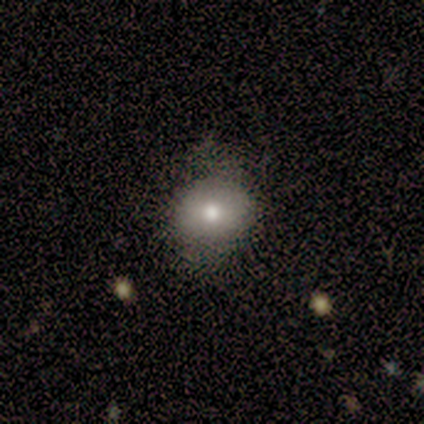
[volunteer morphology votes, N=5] Overall: smooth (60%; featured or disk 20%). How rounded: round (67%; in between 33%). Merging: none (75%).